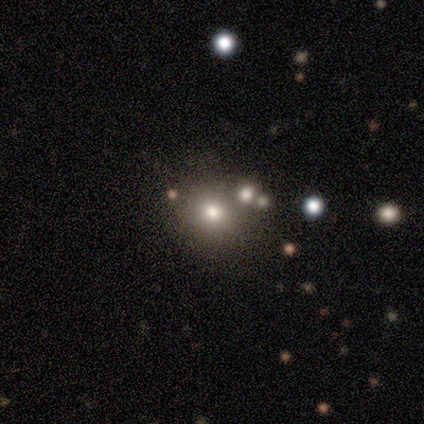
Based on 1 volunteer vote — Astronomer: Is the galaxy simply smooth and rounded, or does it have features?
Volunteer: smooth — 100%.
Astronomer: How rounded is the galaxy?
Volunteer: round — 100%.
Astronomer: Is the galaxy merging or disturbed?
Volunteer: none — 100%.